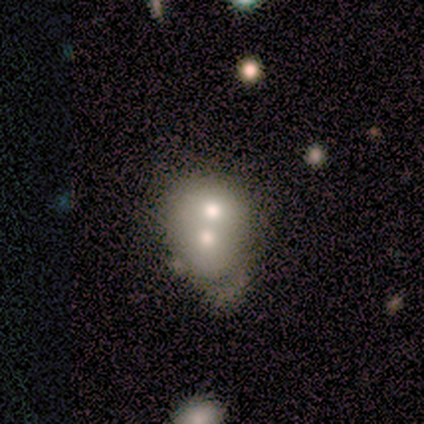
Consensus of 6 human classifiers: A featured or disk galaxy (67%) with no bar (100%), no spiral arms (100%) and a moderate central bulge (50%).

Vote fractions:
- Smooth or featured? featured or disk: 67% / smooth: 33% / star or artifact: 0%
- Edge-on disk? no: 100% / yes: 0%
- Bar? no: 100% / strong: 0% / weak: 0%
- Spiral arms? no: 100% / yes: 0%
- Bulge size? moderate: 50% / dominant: 25% / large: 25% / small: 0% / none: 0%
- Merging? merger: 50% / none: 33% / major disturbance: 17% / minor disturbance: 0%